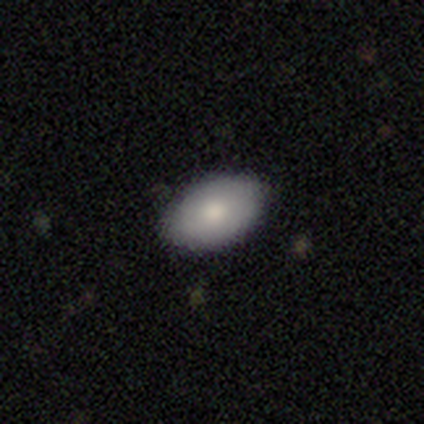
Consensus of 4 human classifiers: Smooth or featured: smooth — 100%
How rounded: in between — 100%
Merging: none — 75% (minor disturbance — 25%)